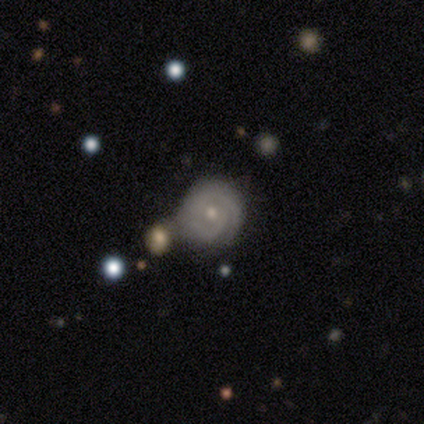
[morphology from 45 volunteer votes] Q: Smooth or featured?
A: featured or disk (89%); runner-up: star or artifact (7%)
Q: Edge-on disk?
A: no (98%); runner-up: yes (2%)
Q: Bar?
A: no (67%); runner-up: weak (28%)
Q: Spiral arms?
A: yes (95%); runner-up: no (5%)
Q: Spiral winding?
A: tight (76%); runner-up: medium (16%)
Q: Spiral arm count?
A: 2 (62%); runner-up: can't tell (16%)
Q: Bulge size?
A: small (54%); runner-up: moderate (46%)
Q: Merging?
A: none (67%); runner-up: minor disturbance (17%)